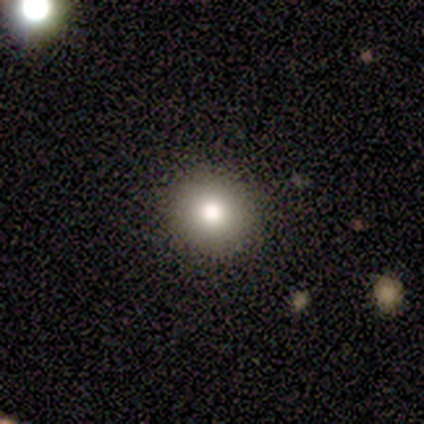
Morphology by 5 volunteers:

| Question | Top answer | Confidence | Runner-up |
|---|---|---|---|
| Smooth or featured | smooth | 80% | star or artifact (20%) |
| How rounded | round | 100% | — |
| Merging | none | 100% | — |